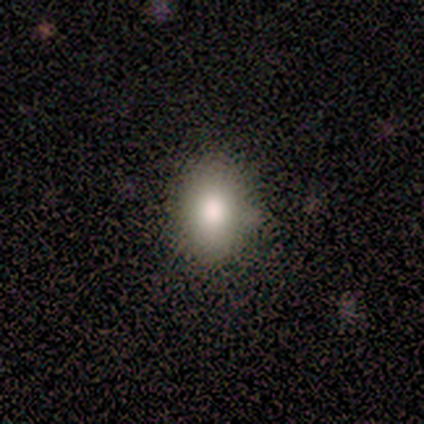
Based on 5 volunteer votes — Volunteers were most divided on "how rounded": in between: 80%, round: 20%, cigar-shaped: 0%. More confident: smooth or featured — smooth (100%); merging — none (80%).